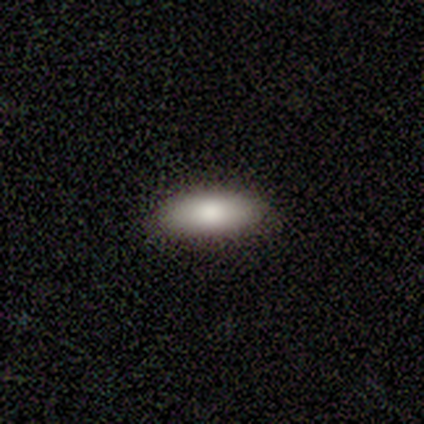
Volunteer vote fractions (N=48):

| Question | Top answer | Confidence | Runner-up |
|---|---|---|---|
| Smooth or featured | smooth | 81% | featured or disk (12%) |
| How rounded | in between | 92% | cigar-shaped (8%) |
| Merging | none | 96% | minor disturbance (4%) |